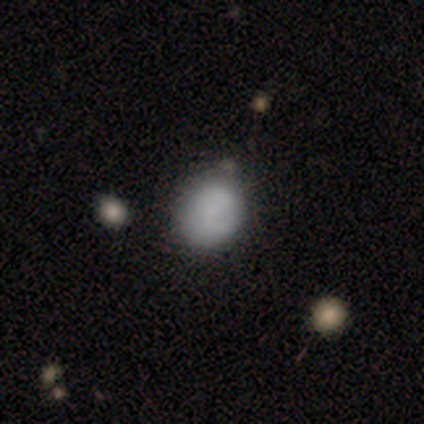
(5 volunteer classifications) Volunteers were most divided on "spiral arm count" (2-way tie): 2: 50%, can't tell: 50%, 1: 0%, 3: 0%, 4: 0%, more than 4: 0%. More confident: edge-on disk — no (100%); bar — no (100%); spiral winding — tight (100%); merging — none (80%); spiral arms — yes (67%); bulge size — none (67%); smooth or featured — featured or disk (60%).